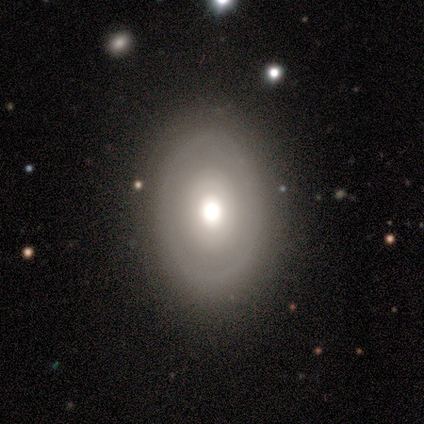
Smooth or featured?
  - featured or disk: 75% *
  - smooth: 25%
  - star or artifact: 0%
Edge-on disk?
  - no: 100% *
  - yes: 0%
Bar?
  - no: 100% *
  - strong: 0%
  - weak: 0%
Spiral arms?
  - no: 100% *
  - yes: 0%
Bulge size?
  - moderate: 67% *
  - large: 33%
  - dominant: 0%
  - small: 0%
  - none: 0%
Merging?
  - none: 75% *
  - minor disturbance: 25%
  - major disturbance: 0%
  - merger: 0%